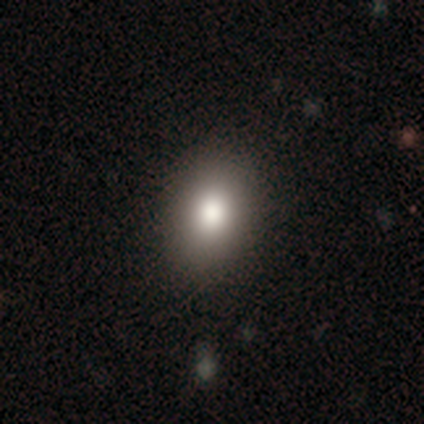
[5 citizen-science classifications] Volunteers were most divided on "how rounded": in between: 60%, round: 40%, cigar-shaped: 0%. More confident: smooth or featured — smooth (100%); merging — none (100%).